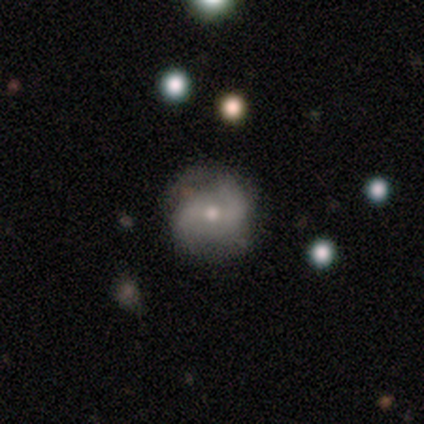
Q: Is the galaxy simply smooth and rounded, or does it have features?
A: featured or disk — 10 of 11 (91%).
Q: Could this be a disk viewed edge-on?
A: no — 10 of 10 (100%).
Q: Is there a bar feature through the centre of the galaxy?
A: no — 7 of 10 (70%).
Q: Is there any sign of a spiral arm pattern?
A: yes — 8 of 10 (80%).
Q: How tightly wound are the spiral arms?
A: medium — 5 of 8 (62%).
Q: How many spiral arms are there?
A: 2 — 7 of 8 (88%).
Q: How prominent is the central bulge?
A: small — 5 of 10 (50%).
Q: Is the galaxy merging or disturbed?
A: none — 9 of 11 (82%).